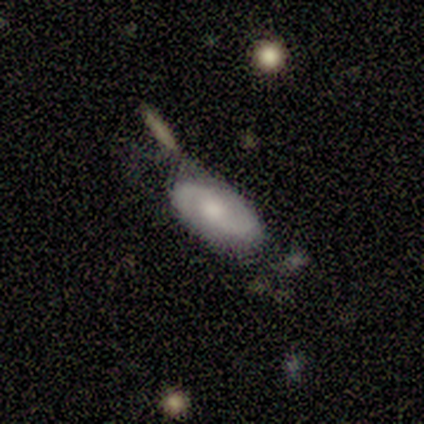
This is clearly a featured or disk galaxy (80%). It is clearly not viewed edge-on (100%). Bar: likely no (75%). Spiral arm pattern: likely yes (75%). Spiral arm count: clearly 2 (100%). Spiral winding: likely loose (67%). Central bulge: likely moderate (75%). Merging: likely none (60%).